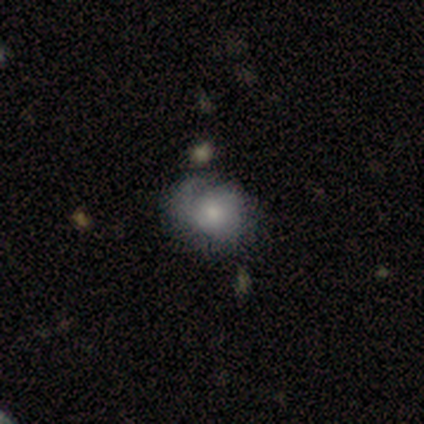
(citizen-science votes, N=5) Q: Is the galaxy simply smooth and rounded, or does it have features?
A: featured or disk — 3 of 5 (60%).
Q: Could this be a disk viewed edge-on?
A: no — 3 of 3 (100%).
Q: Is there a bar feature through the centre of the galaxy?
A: no — 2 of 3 (67%).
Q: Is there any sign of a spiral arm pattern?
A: yes — 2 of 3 (67%).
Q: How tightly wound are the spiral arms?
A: tight — 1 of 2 (50%, tied with medium).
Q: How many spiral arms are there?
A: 2 — 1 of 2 (50%, tied with can't tell).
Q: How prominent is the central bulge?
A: moderate — 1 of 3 (33%, tied with small and none).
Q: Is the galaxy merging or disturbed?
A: minor disturbance — 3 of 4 (75%).